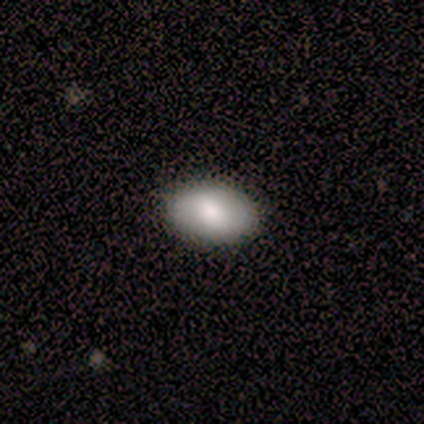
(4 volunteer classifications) smooth-or-featured: smooth: 100% | featured or disk: 0% | star or artifact: 0%
  how-rounded: in between: 100% | round: 0% | cigar-shaped: 0%
  merging: none: 100% | minor disturbance: 0% | major disturbance: 0% | merger: 0%